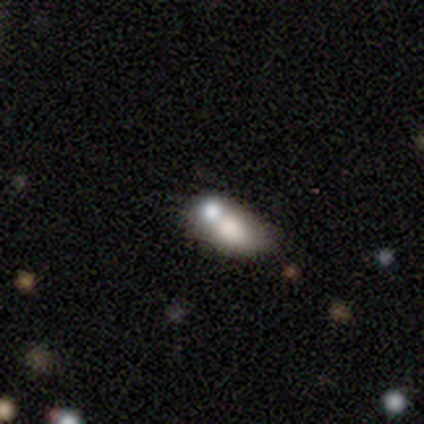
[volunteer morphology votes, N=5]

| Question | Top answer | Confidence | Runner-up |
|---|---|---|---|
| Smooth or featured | smooth | 80% | star or artifact (20%) |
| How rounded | in between | 100% | — |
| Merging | none | 50% | tied: merger (50%) |